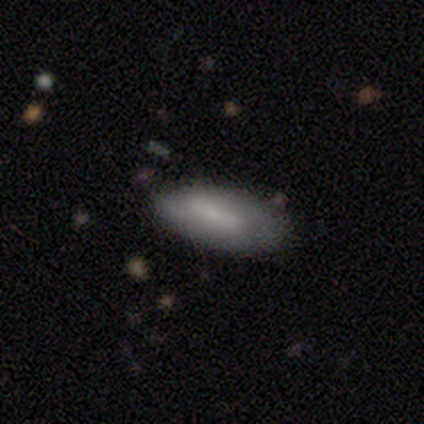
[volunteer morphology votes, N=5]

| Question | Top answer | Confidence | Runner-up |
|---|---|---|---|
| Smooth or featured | featured or disk | 60% | smooth (40%) |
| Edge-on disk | no | 100% | — |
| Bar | weak | 67% | strong (33%) |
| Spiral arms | no | 67% | yes (33%) |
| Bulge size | moderate | 67% | small (33%) |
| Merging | none | 80% | minor disturbance (20%) |